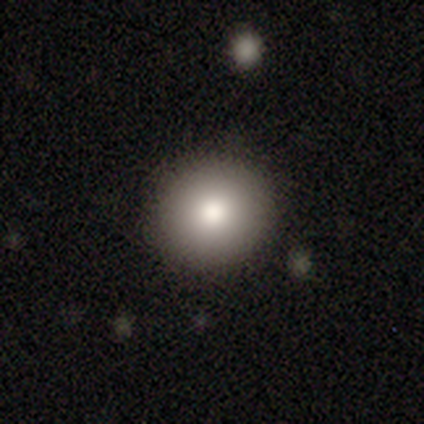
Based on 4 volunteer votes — A smooth galaxy with no disk features (75%) that is round (67%).

Vote fractions:
- Smooth or featured? smooth: 75% / featured or disk: 25% / star or artifact: 0%
- How rounded? round: 67% / in between: 33% / cigar-shaped: 0%
- Merging? none: 100% / minor disturbance: 0% / major disturbance: 0% / merger: 0%